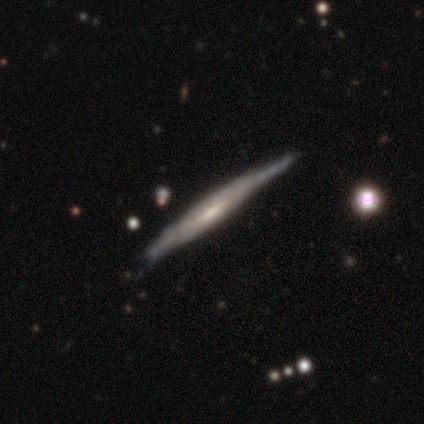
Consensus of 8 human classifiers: Overall: featured or disk (100%). Edge-on disk: yes (88%). Edge-on bulge: none (100%). Merging: minor disturbance (62%; none 38%).